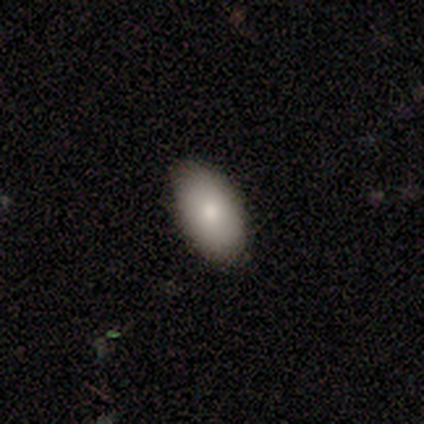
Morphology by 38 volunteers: Volunteers were most divided on "smooth or featured": smooth: 92%, featured or disk: 8%, star or artifact: 0%. More confident: how rounded — in between (97%); merging — none (92%).